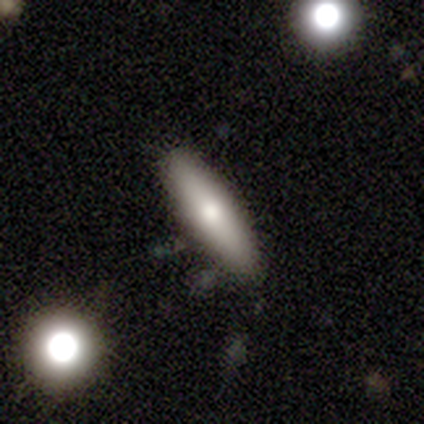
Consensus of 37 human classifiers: Morphology: type=smooth (70%); roundness=cigar-shaped (77%); merging=none (92%).